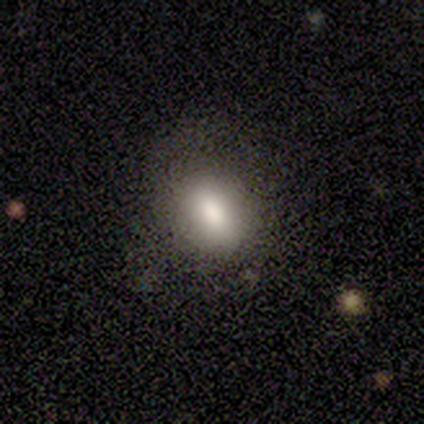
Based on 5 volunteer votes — A smooth galaxy with no disk features (80%) that is in between round and cigar-shaped (100%).

Vote fractions:
- Smooth or featured? smooth: 80% / featured or disk: 20% / star or artifact: 0%
- How rounded? in between: 100% / round: 0% / cigar-shaped: 0%
- Merging? none: 100% / minor disturbance: 0% / major disturbance: 0% / merger: 0%